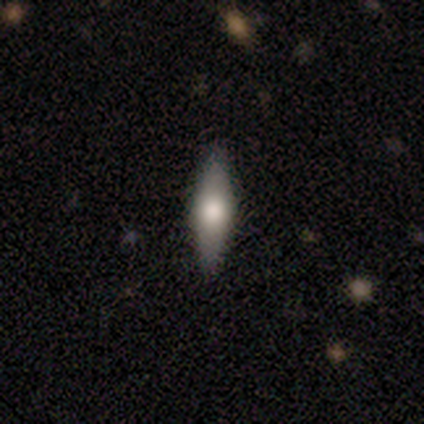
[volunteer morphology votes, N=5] A smooth galaxy with no disk features (60%) that is cigar-shaped (67%).

Vote fractions:
- Smooth or featured? smooth: 60% / featured or disk: 40% / star or artifact: 0%
- How rounded? cigar-shaped: 67% / in between: 33% / round: 0%
- Merging? none: 100% / minor disturbance: 0% / major disturbance: 0% / merger: 0%